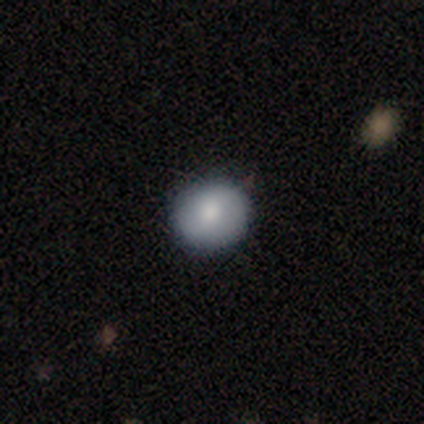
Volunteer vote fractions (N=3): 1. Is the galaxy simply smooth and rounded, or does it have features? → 67% smooth, 33% star or artifact, 0% featured or disk.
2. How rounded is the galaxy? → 100% round, 0% in between, 0% cigar-shaped.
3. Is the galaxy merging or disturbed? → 100% none, 0% minor disturbance, 0% major disturbance, 0% merger.